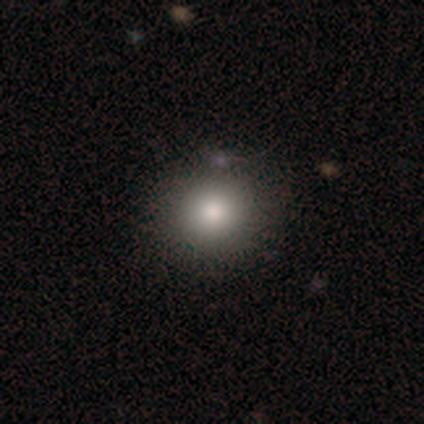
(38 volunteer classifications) Q: Smooth or featured?
A: smooth (71%); runner-up: star or artifact (16%)
Q: How rounded?
A: round (93%); runner-up: in between (7%)
Q: Merging?
A: none (66%); runner-up: minor disturbance (6%)